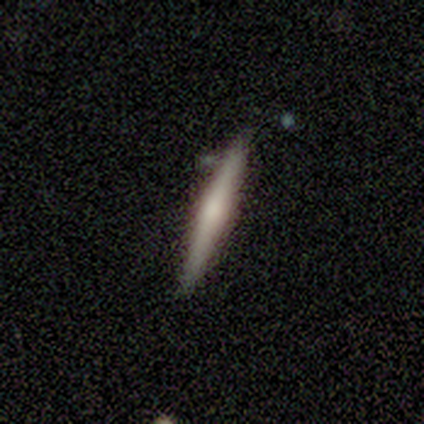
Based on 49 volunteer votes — Volunteers were most divided on "smooth or featured": featured or disk: 53%, smooth: 43%, star or artifact: 4%. More confident: edge-on disk — yes (96%); merging — none (81%); edge-on bulge — rounded (56%).